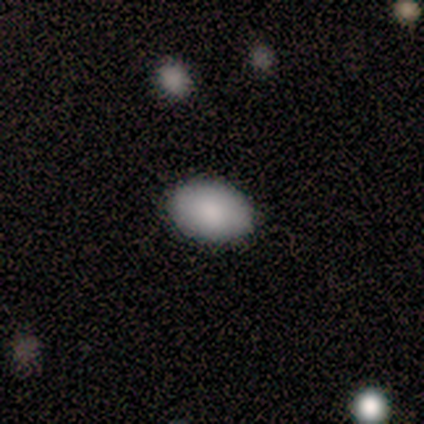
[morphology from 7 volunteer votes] smooth_or_featured: smooth (p=1.00)
how_rounded: in between (p=0.86) [alt: round p=0.14]
merging: none (p=1.00)